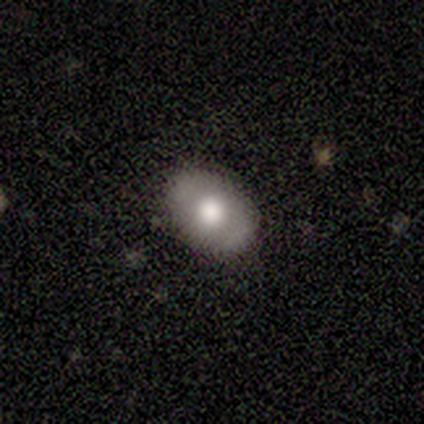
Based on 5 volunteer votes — smooth 100%, featured or disk 0%, star or artifact 0%. Down the decision tree: how rounded — in between (100%); merging — none (100%).